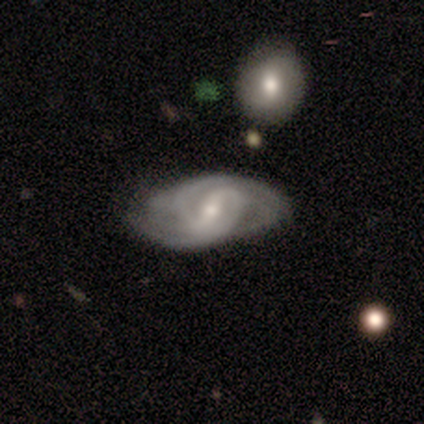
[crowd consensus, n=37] featured or disk 86%, star or artifact 8%, smooth 5%. Down the decision tree: edge-on disk — no (94%); bar — weak (57%); spiral arms — yes (100%); spiral arm count — 2 (50%); spiral winding — medium (53%); bulge size — small (53%); merging — none (56%).